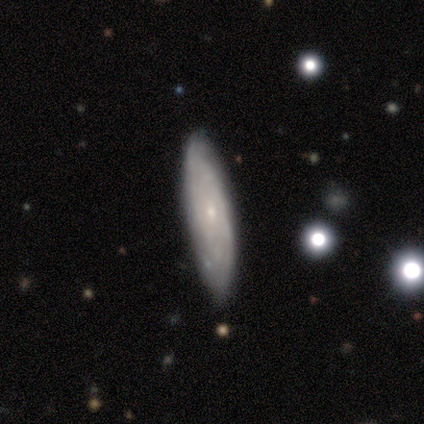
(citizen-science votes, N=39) Smooth or featured: featured or disk — 54% (smooth — 33%)
Edge-on disk: no — 67% (yes — 33%)
Bar: no — 86% (weak — 14%)
Spiral arms: yes — 93% (no — 7%)
Spiral winding: tight — 69% (medium — 31%)
Spiral arm count: can't tell — 77% (2 — 8%)
Bulge size: small — 79% (moderate — 14%)
Merging: none — 91% (minor disturbance — 9%)